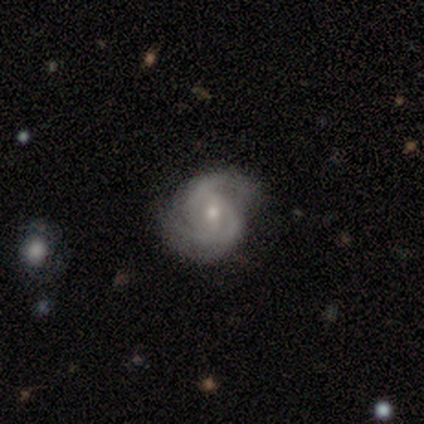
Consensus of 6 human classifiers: smooth_or_featured: featured or disk (p=1.00)
disk_edge_on: no (p=1.00)
bar: weak (p=0.50) [tied with: no p=0.50]
has_spiral_arms: yes (p=1.00)
spiral_winding: medium (p=0.83) [alt: tight p=0.17]
spiral_arm_count: 2 (p=0.67) [alt: 1 p=0.17]
bulge_size: moderate (p=0.50) [tied with: small p=0.50]
merging: none (p=0.50) [tied with: minor disturbance p=0.50]